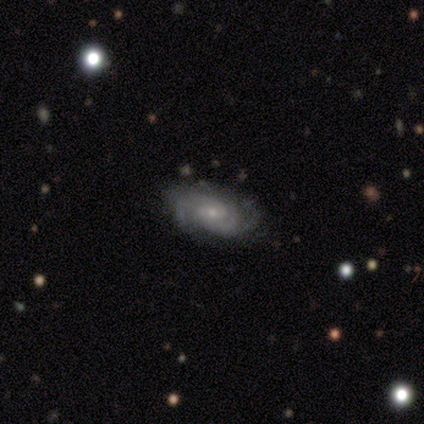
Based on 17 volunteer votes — Volunteers were most divided on "spiral winding": tight: 54%, medium: 38%, loose: 8%. More confident: edge-on disk — no (100%); spiral arms — yes (100%); bulge size — small (92%); smooth or featured — featured or disk (76%); merging — none (75%); bar — no (69%); spiral arm count — 2 (69%).